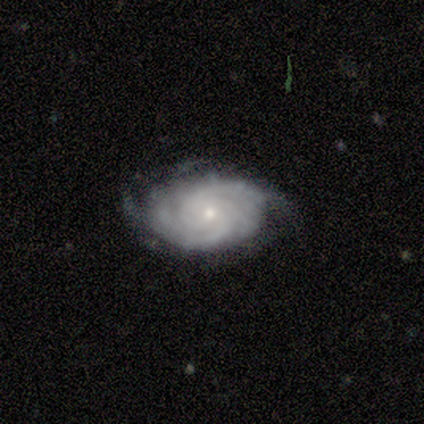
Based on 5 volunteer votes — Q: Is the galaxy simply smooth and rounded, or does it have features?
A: featured or disk — 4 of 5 (80%).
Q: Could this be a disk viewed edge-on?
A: no — 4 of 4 (100%).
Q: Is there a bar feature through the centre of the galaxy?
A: weak — 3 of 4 (75%).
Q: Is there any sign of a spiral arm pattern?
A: yes — 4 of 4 (100%).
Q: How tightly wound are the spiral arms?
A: tight — 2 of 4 (50%).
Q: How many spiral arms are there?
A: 1 — 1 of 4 (25%, tied with 2, 3 and 4).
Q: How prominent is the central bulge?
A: small — 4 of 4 (100%).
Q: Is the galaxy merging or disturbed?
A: none — 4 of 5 (80%).